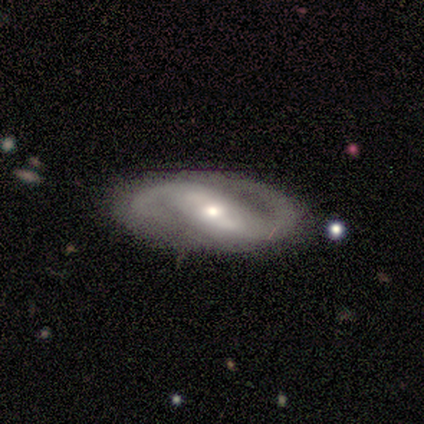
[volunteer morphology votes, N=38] Smooth or featured: featured or disk — 87% (smooth — 11%)
Edge-on disk: no — 94% (yes — 6%)
Bar: strong — 42% (tied with weak — 42%)
Spiral arms: yes — 97% (no — 3%)
Spiral winding: medium — 50% (loose — 30%)
Spiral arm count: 2 — 100%
Bulge size: small — 52% (moderate — 42%)
Merging: none — 70% (minor disturbance — 19%)